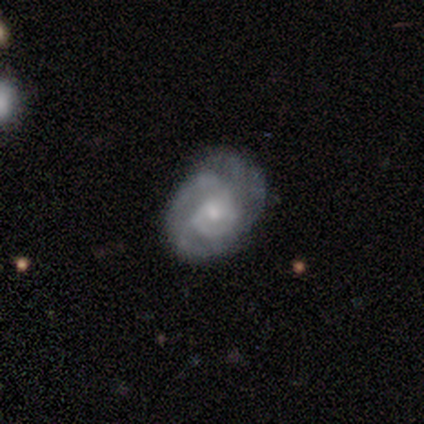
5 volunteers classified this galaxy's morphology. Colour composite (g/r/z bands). It shows a featured or disk galaxy (80%) with no bar (100%), 2 (33%, tied with 3 and can't tell) tight (67%) spiral arms (100%) and a moderate central bulge (67%). Merging: none (40%, tied with minor disturbance).